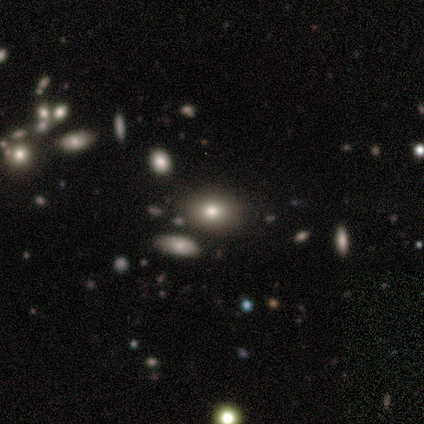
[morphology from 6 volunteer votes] smooth_or_featured: smooth (p=1.00)
how_rounded: in between (p=0.67) [alt: round p=0.33]
merging: none (p=0.83) [alt: minor disturbance p=0.17]